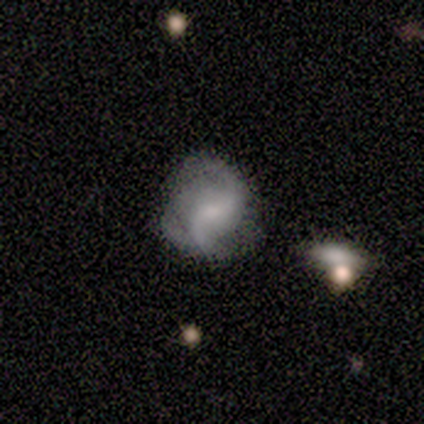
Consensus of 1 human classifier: smooth_or_featured: featured or disk (p=1.00)
disk_edge_on: no (p=1.00)
bar: weak (p=1.00)
has_spiral_arms: yes (p=1.00)
spiral_winding: loose (p=1.00)
spiral_arm_count: 2 (p=1.00)
bulge_size: small (p=1.00)
merging: none (p=1.00)